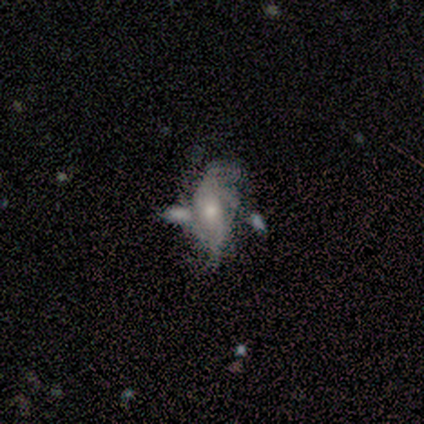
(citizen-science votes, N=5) A featured or disk galaxy (60%) with no bar (100%), tight (50%, tied with loose) spiral arms (67%) and a small central bulge (100%).

Vote fractions:
- Smooth or featured? featured or disk: 60% / smooth: 20% / star or artifact: 20%
- Edge-on disk? no: 100% / yes: 0%
- Bar? no: 100% / strong: 0% / weak: 0%
- Spiral arms? yes: 67% / no: 33%
- Spiral winding? tight: 50% (tied) / loose: 50% (tied) / medium: 0%
- Spiral arm count? can't tell: 100% / 1: 0% / 2: 0% / 3: 0% / 4: 0% / more than 4: 0%
- Bulge size? small: 100% / dominant: 0% / large: 0% / moderate: 0% / none: 0%
- Merging? none: 50% / minor disturbance: 25% / merger: 25% / major disturbance: 0%